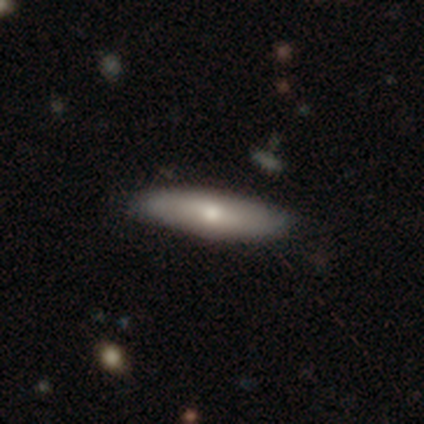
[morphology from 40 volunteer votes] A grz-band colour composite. It shows a featured or disk galaxy (52%) viewed edge-on (76%) with a rounded central bulge (75%). Merging: none (72%).